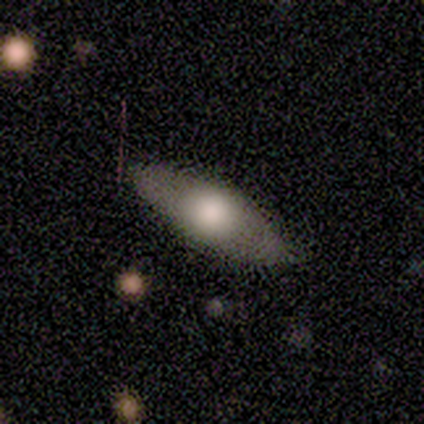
A featured or disk galaxy (60%) viewed edge-on (100%) with a rounded central bulge (100%).

Vote fractions:
- Smooth or featured? featured or disk: 60% / smooth: 40% / star or artifact: 0%
- Edge-on disk? yes: 100% / no: 0%
- Edge-on bulge? rounded: 100% / boxy: 0% / none: 0%
- Merging? none: 100% / minor disturbance: 0% / major disturbance: 0% / merger: 0%